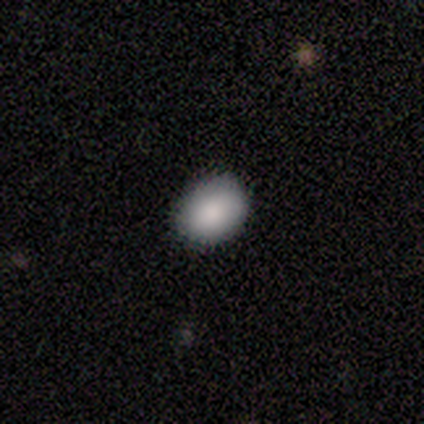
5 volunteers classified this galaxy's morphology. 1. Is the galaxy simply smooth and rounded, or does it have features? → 100% smooth, 0% featured or disk, 0% star or artifact.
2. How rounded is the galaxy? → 60% in between, 40% round, 0% cigar-shaped.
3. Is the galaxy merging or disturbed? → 80% none, 20% minor disturbance, 0% major disturbance, 0% merger.